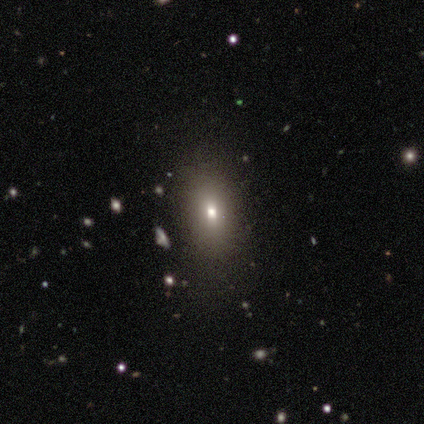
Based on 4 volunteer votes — Volunteers were most divided on "how rounded": in between: 67%, round: 33%, cigar-shaped: 0%. More confident: merging — none (100%); smooth or featured — smooth (75%).